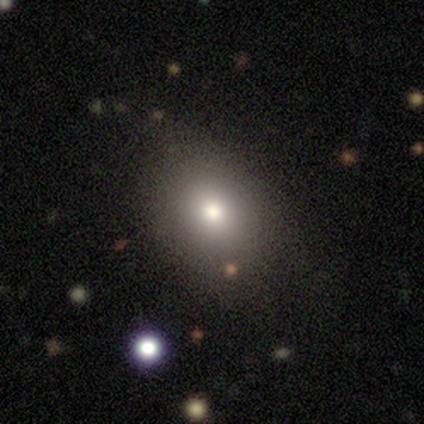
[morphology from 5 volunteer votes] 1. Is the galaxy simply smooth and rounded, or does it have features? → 100% smooth, 0% featured or disk, 0% star or artifact.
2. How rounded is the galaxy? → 60% round, 40% in between, 0% cigar-shaped.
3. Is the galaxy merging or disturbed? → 80% none, 20% minor disturbance, 0% major disturbance, 0% merger.